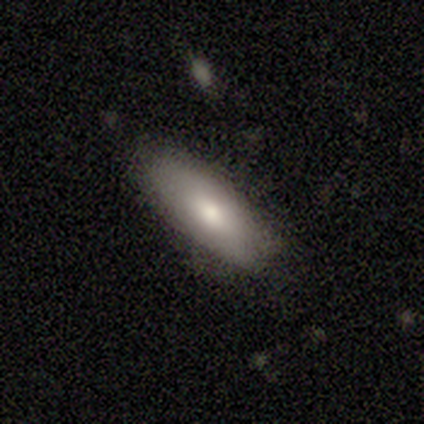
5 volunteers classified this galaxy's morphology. Q: Smooth or featured?
A: smooth (60%); runner-up: featured or disk (40%)
Q: How rounded?
A: in between (67%); runner-up: cigar-shaped (33%)
Q: Merging?
A: none (80%); runner-up: minor disturbance (20%)